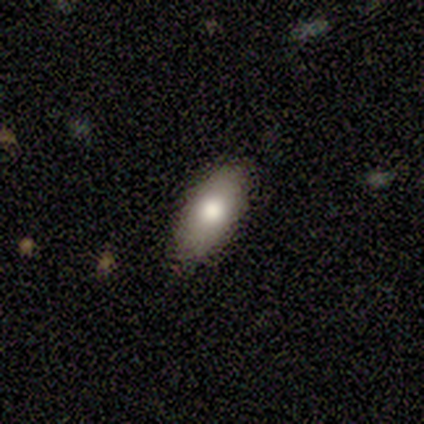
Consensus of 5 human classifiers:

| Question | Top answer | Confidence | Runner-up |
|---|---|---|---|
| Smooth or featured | smooth | 100% | — |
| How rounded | in between | 80% | round (20%) |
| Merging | none | 100% | — |